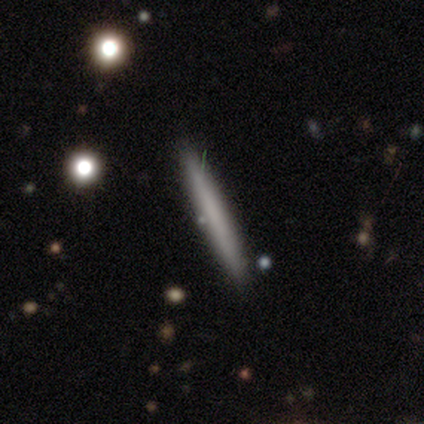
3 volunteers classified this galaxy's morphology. smooth_or_featured: smooth (p=0.67) [alt: featured or disk p=0.33]
how_rounded: cigar-shaped (p=1.00)
merging: none (p=1.00)